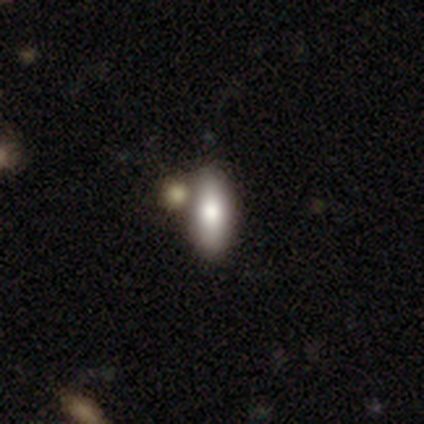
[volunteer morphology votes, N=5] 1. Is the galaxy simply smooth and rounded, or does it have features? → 80% smooth, 20% featured or disk, 0% star or artifact.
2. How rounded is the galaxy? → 100% in between, 0% round, 0% cigar-shaped.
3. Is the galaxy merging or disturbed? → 40% minor disturbance (tied), 40% merger (tied), 20% major disturbance, 0% none.